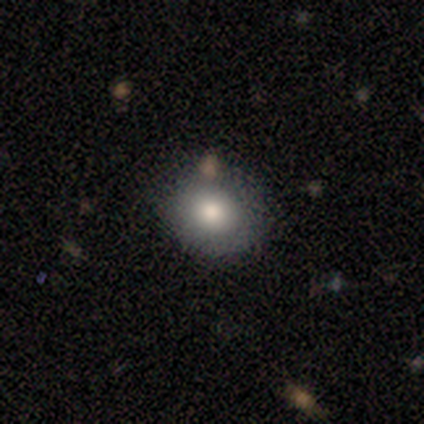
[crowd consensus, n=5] A smooth galaxy with no disk features (100%) that is round (80%). Merging: none (80%).